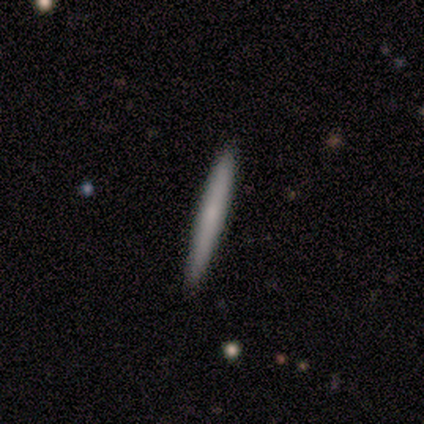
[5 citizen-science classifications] Volunteers were most divided on "smooth or featured": smooth: 60%, featured or disk: 40%, star or artifact: 0%. More confident: how rounded — cigar-shaped (100%); merging — none (100%).